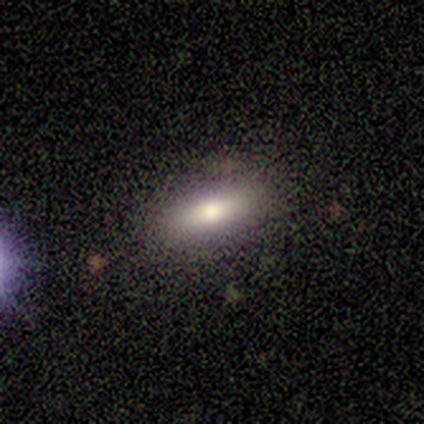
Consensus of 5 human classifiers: featured or disk 60%, smooth 40%, star or artifact 0%. Down the decision tree: edge-on disk — yes (100%); edge-on bulge — rounded (100%); merging — none (80%).